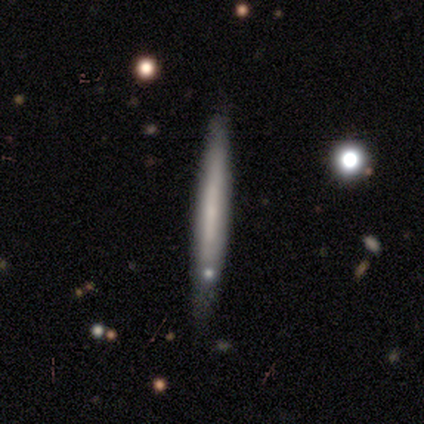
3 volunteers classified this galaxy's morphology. A smooth galaxy with no disk features (100%) that is cigar-shaped (100%).

Vote fractions:
- Smooth or featured? smooth: 100% / featured or disk: 0% / star or artifact: 0%
- How rounded? cigar-shaped: 100% / round: 0% / in between: 0%
- Merging? none: 67% / minor disturbance: 33% / major disturbance: 0% / merger: 0%